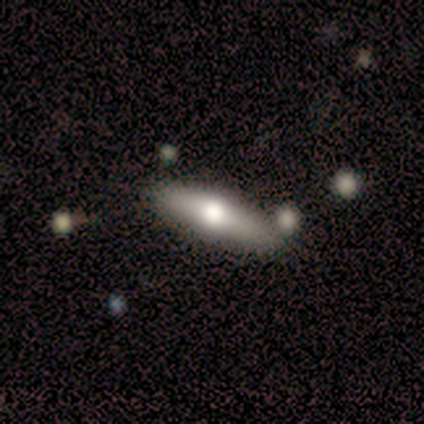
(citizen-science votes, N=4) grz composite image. It shows a featured or disk galaxy (75%) viewed edge-on (100%) with a rounded central bulge (100%). Merging: none (75%).